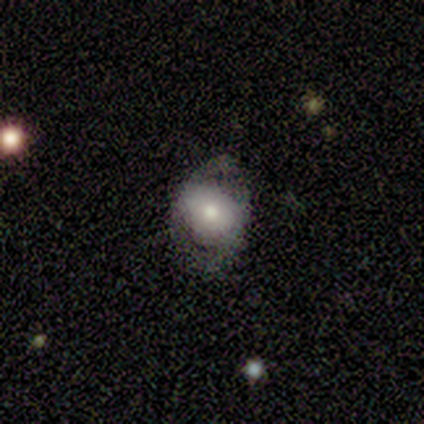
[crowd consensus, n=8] Overall: smooth (62%; featured or disk 38%). How rounded: in between (100%). Merging: none (100%).